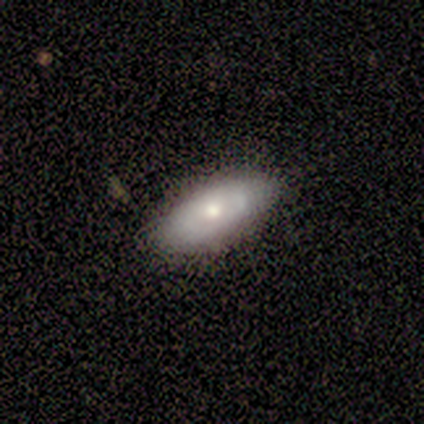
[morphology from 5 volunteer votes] smooth 60%, featured or disk 40%, star or artifact 0%. Down the decision tree: how rounded — in between (100%); merging — none (80%).